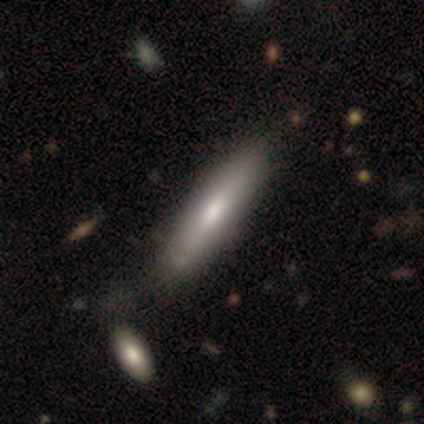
This appears to be a smooth galaxy with no disk features (68%) that is cigar-shaped (89%). Merging: none (58%).